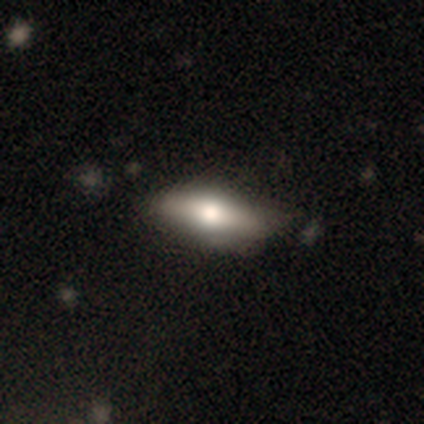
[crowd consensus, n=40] Smooth or featured? smooth (60%)
How rounded? in between (75%)
Merging? none (42%)